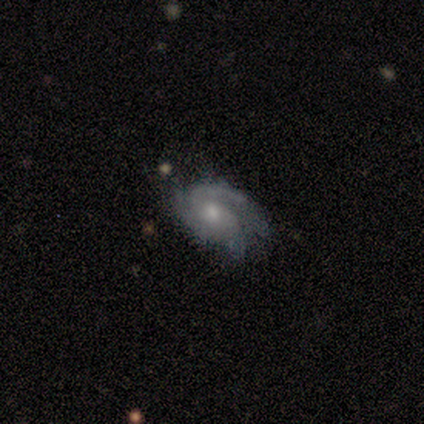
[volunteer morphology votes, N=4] featured or disk 75%, star or artifact 25%, smooth 0%. Down the decision tree: edge-on disk — no (100%); bar — no (100%); spiral arms — yes (67%); spiral arm count — 3 (100%); spiral winding — medium (50%, tied with loose); bulge size — moderate (100%); merging — none (33%, tied with minor disturbance and merger).